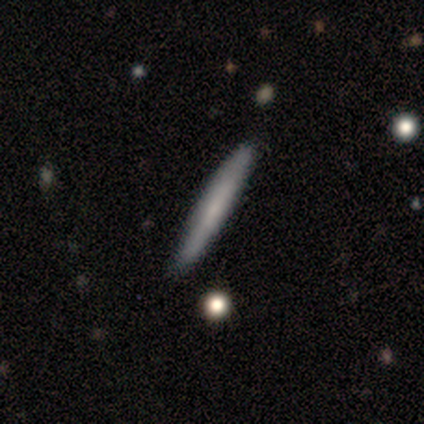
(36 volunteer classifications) Morphology: type=smooth (64%); roundness=cigar-shaped (96%); merging=none (88%).